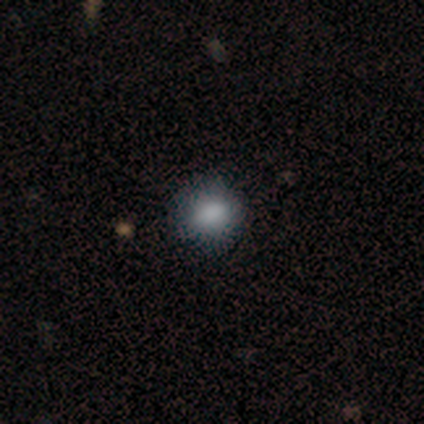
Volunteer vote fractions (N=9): A smooth galaxy with no disk features (67%) that is round (83%). Merging: none (86%).